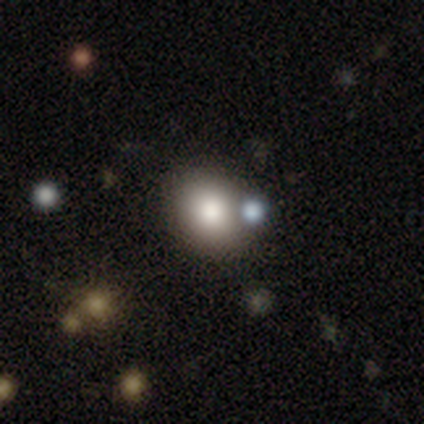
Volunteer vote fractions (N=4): Smooth or featured: smooth — 100%
How rounded: round — 75% (in between — 25%)
Merging: none — 100%